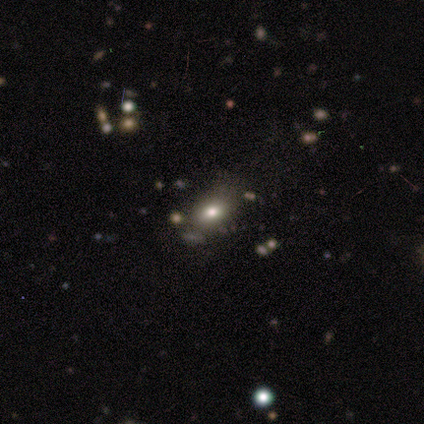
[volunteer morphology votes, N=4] A smooth galaxy with no disk features (75%) that is in between round and cigar-shaped (67%).

Vote fractions:
- Smooth or featured? smooth: 75% / star or artifact: 25% / featured or disk: 0%
- How rounded? in between: 67% / round: 33% / cigar-shaped: 0%
- Merging? none: 67% / minor disturbance: 33% / major disturbance: 0% / merger: 0%